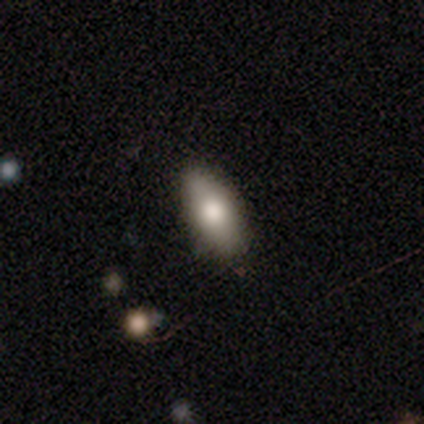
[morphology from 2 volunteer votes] Smooth or featured? 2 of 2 (100%) said smooth. How rounded? 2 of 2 (100%) said cigar-shaped. Merging? 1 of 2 (50%, tied with major disturbance) said none.